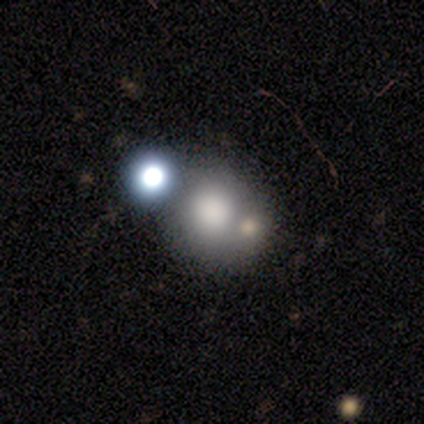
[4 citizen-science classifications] Volunteers were most divided on "how rounded": round: 67%, in between: 33%, cigar-shaped: 0%. More confident: smooth or featured — smooth (75%); merging — merger (75%).